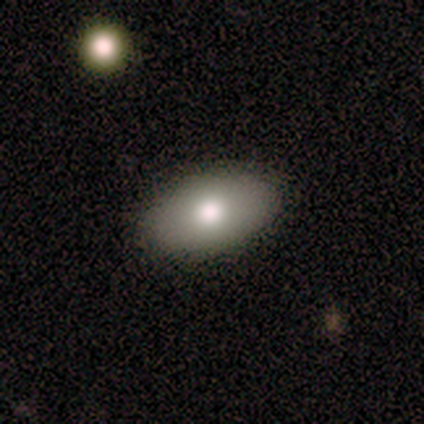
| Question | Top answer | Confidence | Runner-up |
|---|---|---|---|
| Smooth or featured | smooth | 100% | — |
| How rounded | in between | 100% | — |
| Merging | none | 100% | — |